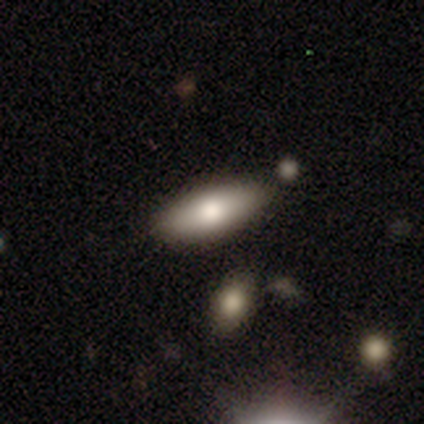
Smooth or featured? smooth (100%)
How rounded? in between (60%)
Merging? none (100%)